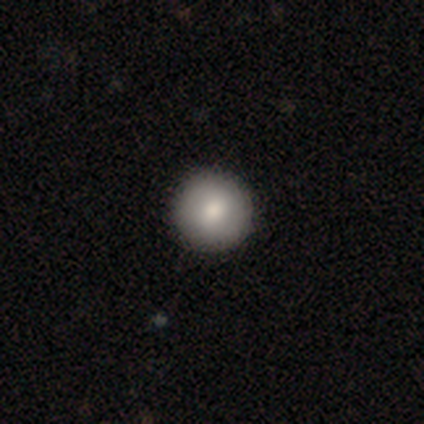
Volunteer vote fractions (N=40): Q: Smooth or featured?
A: smooth (80%); runner-up: featured or disk (15%)
Q: How rounded?
A: round (100%)
Q: Merging?
A: none (68%); runner-up: minor disturbance (3%)